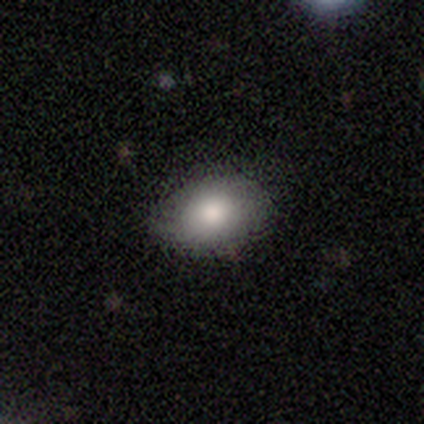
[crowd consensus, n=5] Smooth or featured? smooth (80%)
How rounded? in between (75%)
Merging? none (80%)